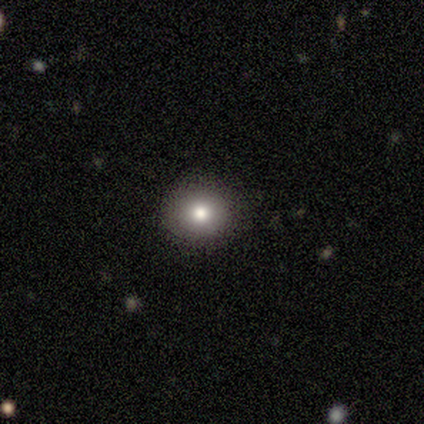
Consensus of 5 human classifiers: Smooth or featured? smooth (80%)
How rounded? round (100%)
Merging? none (100%)